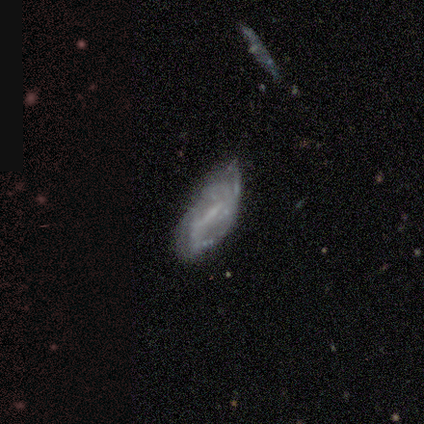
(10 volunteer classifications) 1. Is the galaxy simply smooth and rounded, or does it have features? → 50% featured or disk, 30% smooth, 20% star or artifact.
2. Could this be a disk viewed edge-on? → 100% no, 0% yes.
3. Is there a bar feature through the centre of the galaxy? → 80% weak, 20% no, 0% strong.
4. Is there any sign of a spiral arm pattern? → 100% yes, 0% no.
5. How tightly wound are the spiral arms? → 40% tight (tied), 40% loose (tied), 20% medium.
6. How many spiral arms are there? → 40% 2, 20% 3, 20% more than 4, 20% can't tell, 0% 1, 0% 4.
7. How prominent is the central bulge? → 60% small, 20% moderate, 20% none, 0% dominant, 0% large.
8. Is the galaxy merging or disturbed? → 62% none, 25% minor disturbance, 12% merger, 0% major disturbance.